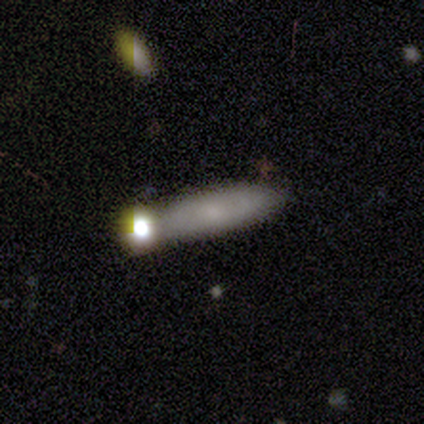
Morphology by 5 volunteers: A featured or disk galaxy (60%) with a weak bar (50%, tied with no), medium (100%) spiral arms (50%, tied with no) and a large central bulge (50%, tied with none).

Vote fractions:
- Smooth or featured? featured or disk: 60% / smooth: 40% / star or artifact: 0%
- Edge-on disk? no: 67% / yes: 33%
- Bar? weak: 50% (tied) / no: 50% (tied) / strong: 0%
- Spiral arms? yes: 50% (tied) / no: 50% (tied)
- Spiral winding? medium: 100% / tight: 0% / loose: 0%
- Spiral arm count? can't tell: 100% / 1: 0% / 2: 0% / 3: 0% / 4: 0% / more than 4: 0%
- Bulge size? large: 50% (tied) / none: 50% (tied) / dominant: 0% / moderate: 0% / small: 0%
- Merging? none: 80% / merger: 20% / minor disturbance: 0% / major disturbance: 0%